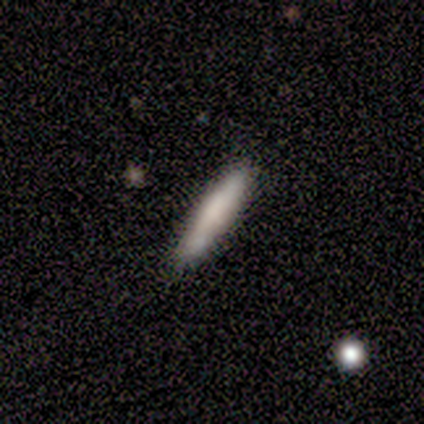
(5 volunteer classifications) Smooth or featured? smooth (100%)
How rounded? cigar-shaped (100%)
Merging? none (100%)